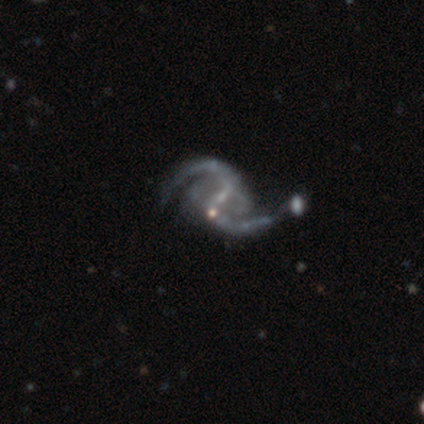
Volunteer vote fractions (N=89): Overall: featured or disk (91%). Edge-on disk: no (99%). Bar: weak (52%; strong 28%). Spiral arms: yes (100%). Spiral arm count: 2 (95%). Spiral winding: loose (62%; medium 31%). Bulge size: small (69%). Merging: none (37%; merger 27%).